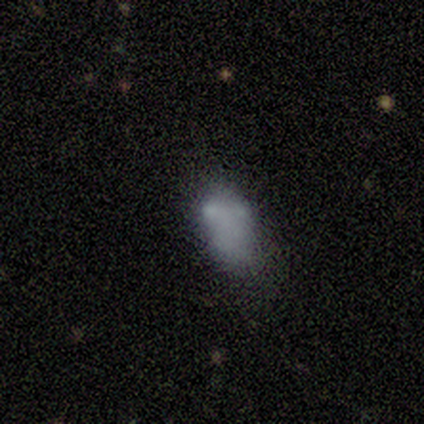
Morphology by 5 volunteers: smooth_or_featured: smooth (p=0.40) [tied with: star or artifact p=0.40]
how_rounded: in between (p=1.00)
merging: none (p=0.33) [tied with: major disturbance p=0.33, merger p=0.33]